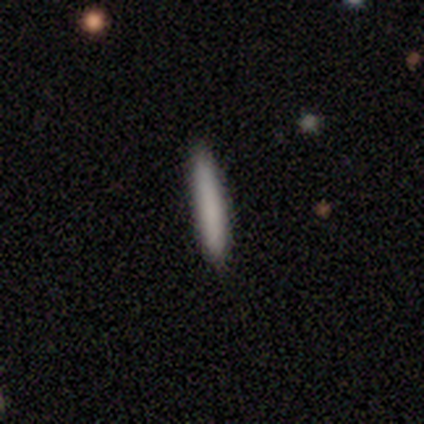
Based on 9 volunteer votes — smooth 78%, featured or disk 22%, star or artifact 0%. Down the decision tree: how rounded — cigar-shaped (100%); merging — none (100%).